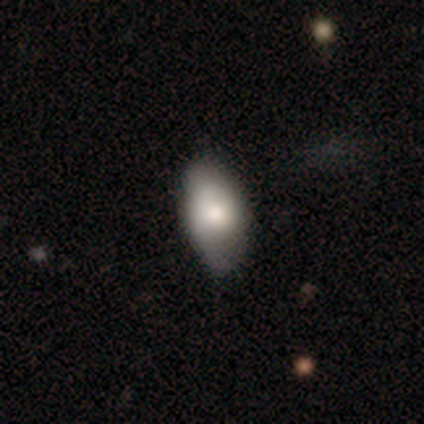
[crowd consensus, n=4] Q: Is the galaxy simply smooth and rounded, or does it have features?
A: smooth — 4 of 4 (100%).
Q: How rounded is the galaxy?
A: in between — 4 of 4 (100%).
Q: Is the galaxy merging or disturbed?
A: none — 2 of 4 (50%, tied with minor disturbance).